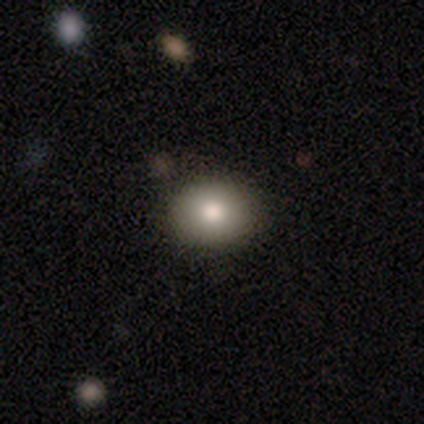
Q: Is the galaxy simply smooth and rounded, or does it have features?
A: smooth — 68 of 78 (87%).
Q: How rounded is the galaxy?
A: round — 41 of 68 (60%).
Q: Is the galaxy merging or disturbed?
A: none — 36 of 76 (47%).